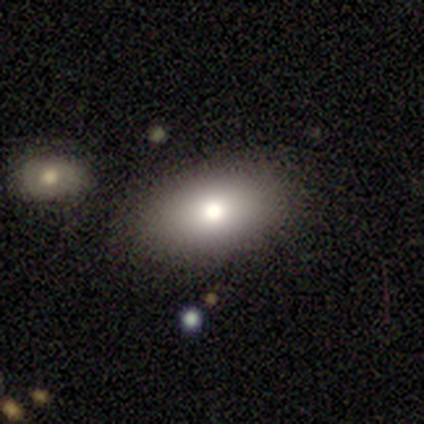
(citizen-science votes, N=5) Volunteers were most divided on "how rounded": in between: 60%, round: 40%, cigar-shaped: 0%. More confident: smooth or featured — smooth (100%); merging — none (100%).